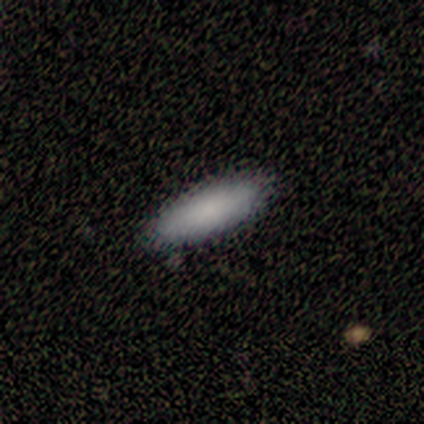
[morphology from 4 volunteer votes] Smooth or featured?
  - smooth: 100% *
  - featured or disk: 0%
  - star or artifact: 0%
How rounded?
  - in between: 75% *
  - cigar-shaped: 25%
  - round: 0%
Merging?
  - minor disturbance: 50% *
  - none: 25%
  - merger: 25%
  - major disturbance: 0%